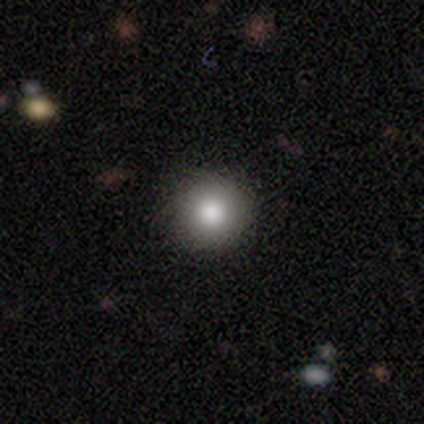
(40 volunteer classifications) This appears to be a smooth galaxy with no disk features (85%) that is round (100%). Merging: none (91%).